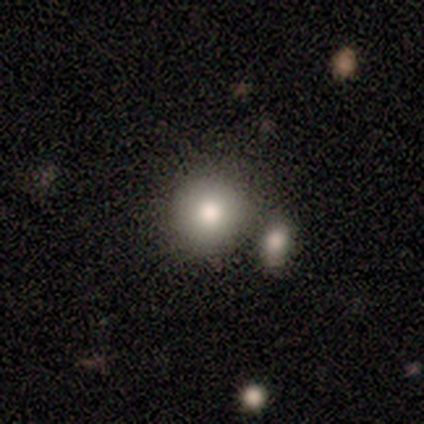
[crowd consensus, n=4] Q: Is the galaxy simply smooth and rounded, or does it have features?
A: smooth — 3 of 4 (75%).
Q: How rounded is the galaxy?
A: round — 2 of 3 (67%).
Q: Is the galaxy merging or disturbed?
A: none — 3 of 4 (75%).